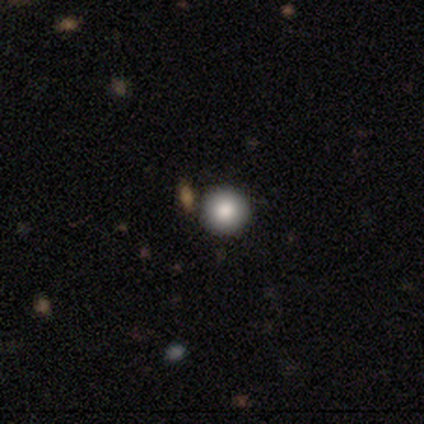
Morphology: type=smooth (77%); roundness=round (95%); merging=none (87%).